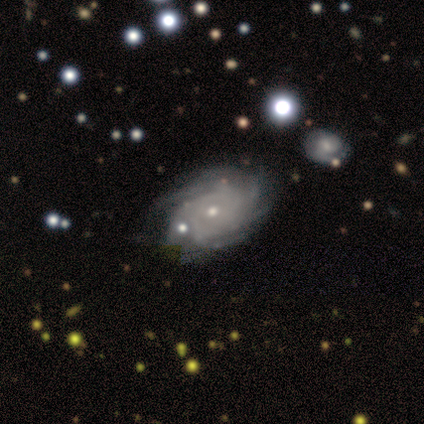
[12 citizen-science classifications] Morphology: type=featured or disk (83%); edge-on=no (90%); bar=no (100%); spiral arms=yes (100%); winding=tight (89%); arm count=more than 4 (44%, tied with can't tell); bulge=small (67%); merging=none (82%).